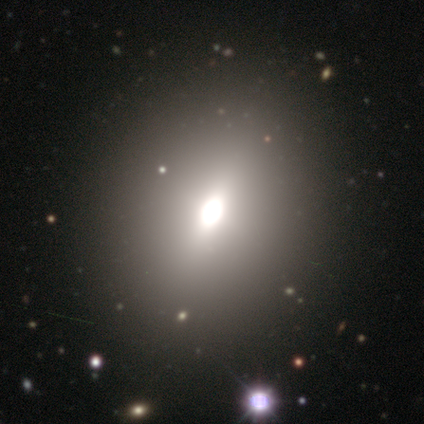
Q: Smooth or featured?
A: smooth (60%); runner-up: featured or disk (20%)
Q: How rounded?
A: in between (100%)
Q: Merging?
A: none (100%)